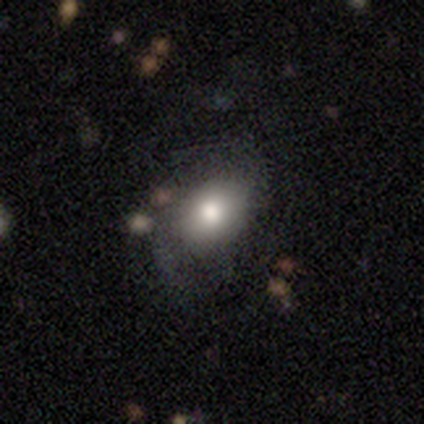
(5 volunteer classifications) Smooth or featured: smooth — 40% (tied with featured or disk — 40%)
How rounded: in between — 100%
Merging: none — 100%